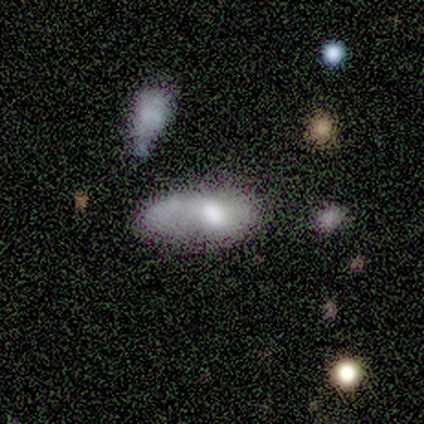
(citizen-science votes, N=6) This appears to be a smooth galaxy with no disk features (67%) that is in between round and cigar-shaped (100%). Merging: major disturbance (50%).